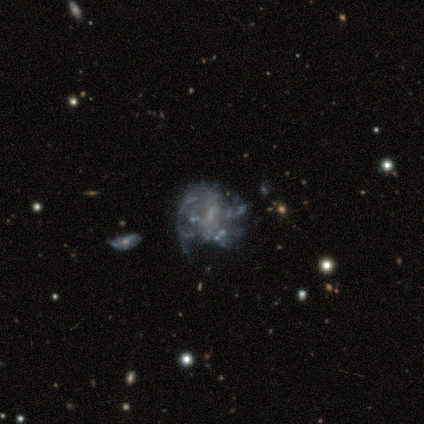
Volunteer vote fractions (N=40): smooth-or-featured: featured or disk: 85% | smooth: 8% | star or artifact: 8%
  disk-edge-on: no: 97% | yes: 3%
    bar: no: 64% | weak: 30% | strong: 6%
    has-spiral-arms: yes: 52% | no: 48%
      spiral-winding: tight: 53% | medium: 24% | loose: 24%
      spiral-arm-count: can't tell: 65% | 1: 18% | 2: 6% | 3: 6% | 4: 6% | more than 4: 0%
    bulge-size: none: 55% | small: 45% | dominant: 0% | large: 0% | moderate: 0%
  merging: none: 46% | major disturbance: 27% | minor disturbance: 22% | merger: 5%